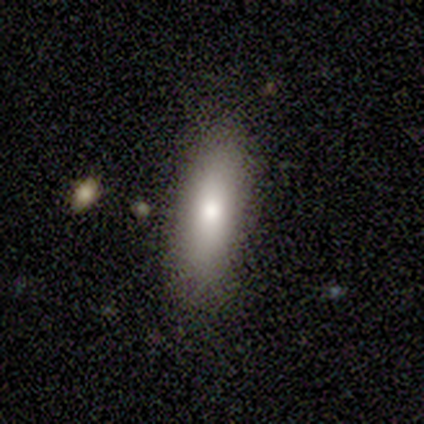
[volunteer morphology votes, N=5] A smooth galaxy with no disk features (80%) that is in between round and cigar-shaped (75%).

Vote fractions:
- Smooth or featured? smooth: 80% / featured or disk: 20% / star or artifact: 0%
- How rounded? in between: 75% / cigar-shaped: 25% / round: 0%
- Merging? none: 60% / minor disturbance: 40% / major disturbance: 0% / merger: 0%